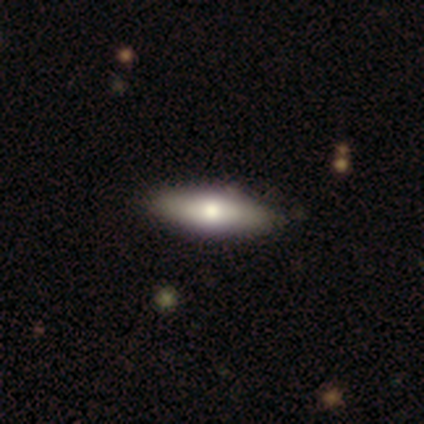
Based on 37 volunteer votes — Smooth or featured: smooth — 57% (featured or disk — 41%)
How rounded: in between — 52% (cigar-shaped — 48%)
Merging: none — 56% (minor disturbance — 3%)